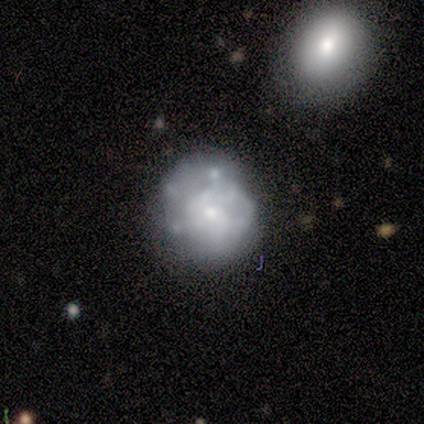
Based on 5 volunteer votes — Smooth or featured: featured or disk — 60% (smooth — 40%)
Edge-on disk: no — 100%
Bar: no — 100%
Spiral arms: no — 67% (yes — 33%)
Bulge size: large — 33% (tied with moderate — 33%; small — 33%)
Merging: major disturbance — 60% (none — 20%)